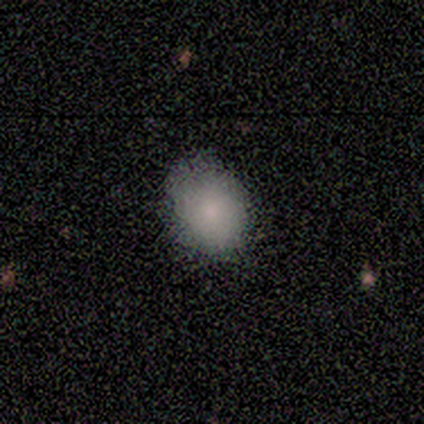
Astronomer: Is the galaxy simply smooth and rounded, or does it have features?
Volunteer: smooth — 100%.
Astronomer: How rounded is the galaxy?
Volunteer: in between — 60% (runner-up: round, 40%).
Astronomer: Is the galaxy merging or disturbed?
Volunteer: none — 100%.